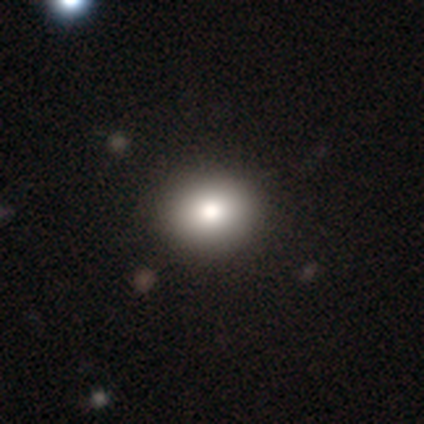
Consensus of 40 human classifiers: A smooth galaxy with no disk features (90%) that is round (53%).

Vote fractions:
- Smooth or featured? smooth: 90% / featured or disk: 8% / star or artifact: 2%
- How rounded? round: 53% / in between: 47% / cigar-shaped: 0%
- Merging? none: 69% / minor disturbance: 10% / major disturbance: 0% / merger: 0%